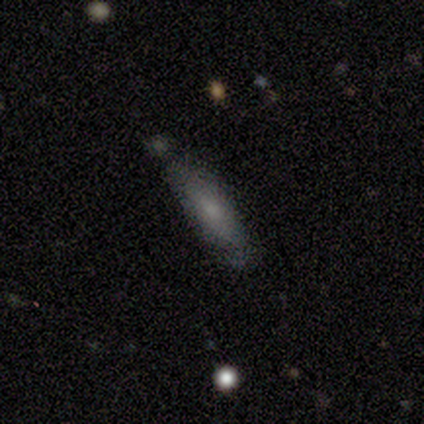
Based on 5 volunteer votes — Q: Smooth or featured?
A: smooth (100%)
Q: How rounded?
A: cigar-shaped (60%); runner-up: in between (40%)
Q: Merging?
A: none (80%); runner-up: minor disturbance (20%)